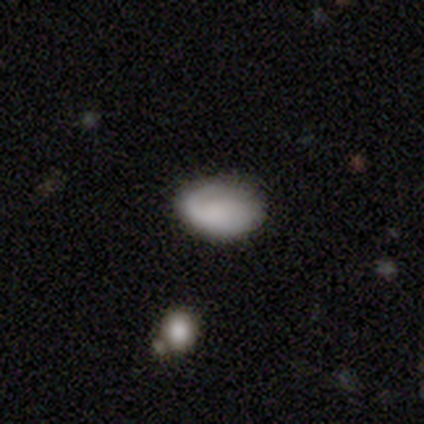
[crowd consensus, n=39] A smooth galaxy with no disk features (56%) that is in between round and cigar-shaped (91%). Merging: none (76%).